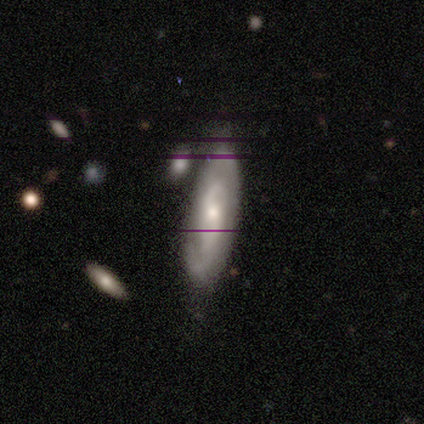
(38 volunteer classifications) Smooth or featured: featured or disk — 47% (smooth — 37%)
Edge-on disk: no — 94% (yes — 6%)
Bar: weak — 65% (no — 35%)
Spiral arms: yes — 94% (no — 6%)
Spiral winding: medium — 50% (tight — 44%)
Spiral arm count: 2 — 62% (can't tell — 38%)
Bulge size: small — 59% (moderate — 29%)
Merging: none — 66% (minor disturbance — 19%)